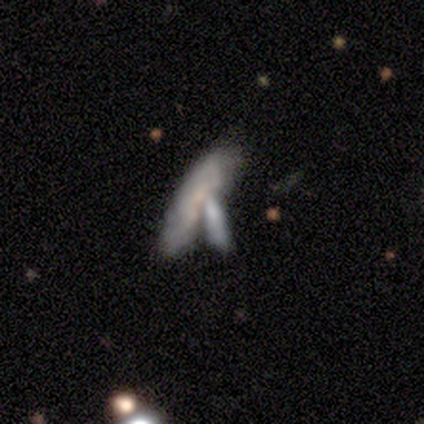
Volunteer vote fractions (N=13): smooth-or-featured: featured or disk: 54% | smooth: 46% | star or artifact: 0%
  disk-edge-on: no: 100% | yes: 0%
    bar: no: 71% | weak: 29% | strong: 0%
    has-spiral-arms: yes: 71% | no: 29%
      spiral-winding: tight: 60% | medium: 20% | loose: 20%
      spiral-arm-count: can't tell: 80% | 2: 20% | 1: 0% | 3: 0% | 4: 0% | more than 4: 0%
    bulge-size: small: 43% (tied) | none: 43% (tied) | moderate: 14% | dominant: 0% | large: 0%
  merging: merger: 77% | none: 8% | minor disturbance: 8% | major disturbance: 8%